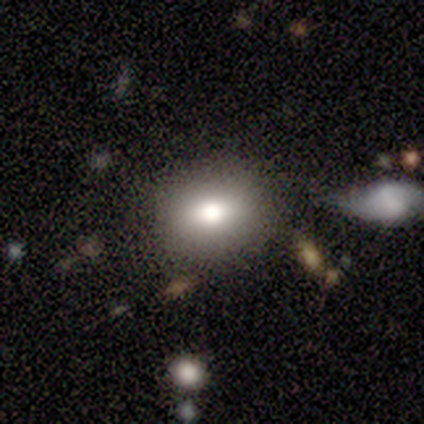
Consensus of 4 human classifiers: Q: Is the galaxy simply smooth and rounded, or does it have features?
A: smooth — 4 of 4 (100%).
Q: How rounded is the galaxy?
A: in between — 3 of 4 (75%).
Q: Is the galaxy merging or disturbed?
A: none — 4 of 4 (100%).